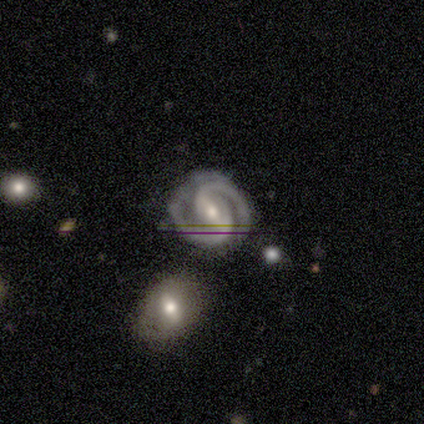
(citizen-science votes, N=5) Overall: featured or disk (80%). Edge-on disk: no (100%). Bar: strong (50%, tied with weak). Spiral arms: yes (100%). Spiral arm count: 2 (100%). Spiral winding: tight (50%, tied with medium). Bulge size: moderate (50%, tied with small). Merging: none (75%).